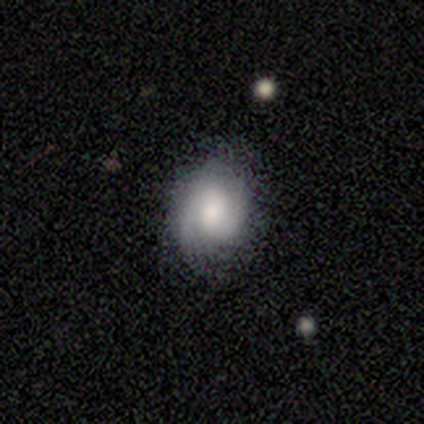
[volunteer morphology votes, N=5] A featured or disk galaxy (80%) with no bar (100%), 2 (50%) medium (50%) spiral arms (100%) and a large central bulge (75%).

Vote fractions:
- Smooth or featured? featured or disk: 80% / smooth: 20% / star or artifact: 0%
- Edge-on disk? no: 100% / yes: 0%
- Bar? no: 100% / strong: 0% / weak: 0%
- Spiral arms? yes: 100% / no: 0%
- Spiral winding? medium: 50% / tight: 25% / loose: 25%
- Spiral arm count? 2: 50% / 1: 25% / 3: 25% / 4: 0% / more than 4: 0% / can't tell: 0%
- Bulge size? large: 75% / moderate: 25% / dominant: 0% / small: 0% / none: 0%
- Merging? none: 80% / minor disturbance: 20% / major disturbance: 0% / merger: 0%